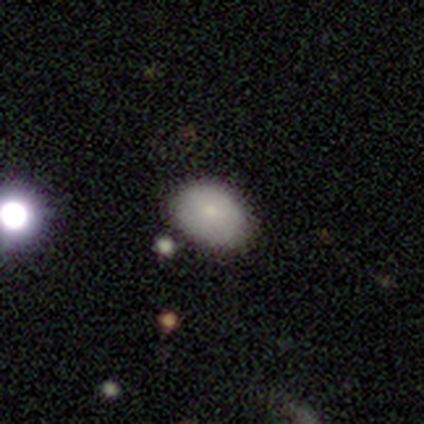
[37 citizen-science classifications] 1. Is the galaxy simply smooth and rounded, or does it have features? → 68% smooth, 19% star or artifact, 14% featured or disk.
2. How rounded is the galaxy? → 72% in between, 28% round, 0% cigar-shaped.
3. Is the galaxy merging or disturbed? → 77% none, 23% minor disturbance, 0% major disturbance, 0% merger.